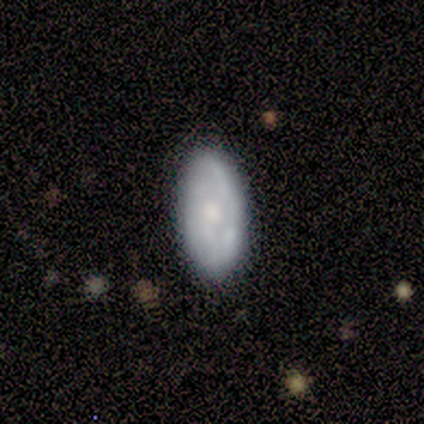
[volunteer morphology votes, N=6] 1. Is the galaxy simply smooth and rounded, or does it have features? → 83% smooth, 17% featured or disk, 0% star or artifact.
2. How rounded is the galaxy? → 80% in between, 20% round, 0% cigar-shaped.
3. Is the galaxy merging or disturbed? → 83% none, 17% minor disturbance, 0% major disturbance, 0% merger.